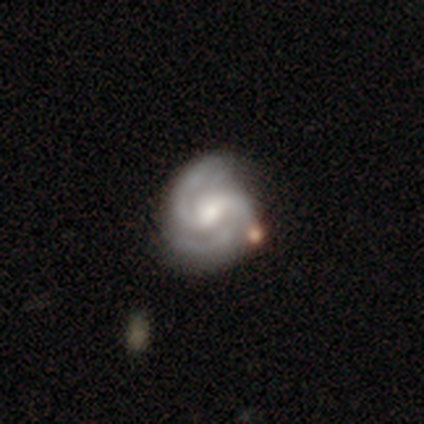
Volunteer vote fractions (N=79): A featured or disk galaxy (94%) with a weak bar (66%), 2 (80%) medium (51%) spiral arms (100%) and a moderate central bulge (59%). Merging: none (29%).